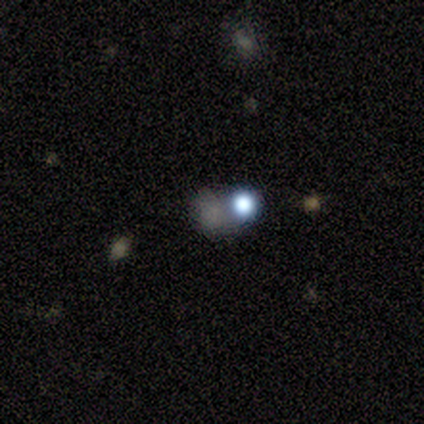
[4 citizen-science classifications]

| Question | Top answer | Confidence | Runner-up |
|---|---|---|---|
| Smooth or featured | star or artifact | 75% | smooth (25%) |